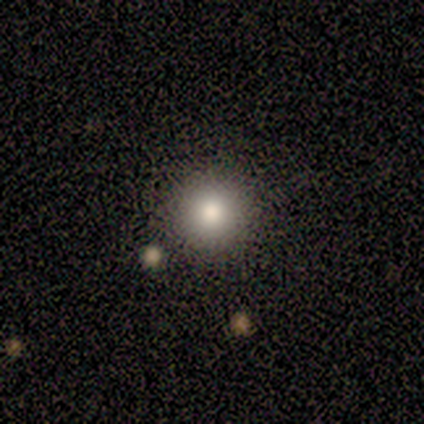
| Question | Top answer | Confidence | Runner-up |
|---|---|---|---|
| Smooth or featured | smooth | 83% | star or artifact (17%) |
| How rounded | round | 80% | in between (20%) |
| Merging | none | 80% | minor disturbance (20%) |